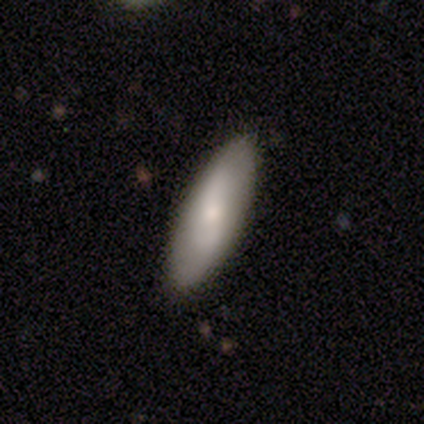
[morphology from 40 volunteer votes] Smooth or featured: smooth — 80% (featured or disk — 20%)
How rounded: in between — 62% (cigar-shaped — 38%)
Merging: none — 88% (minor disturbance — 10%)